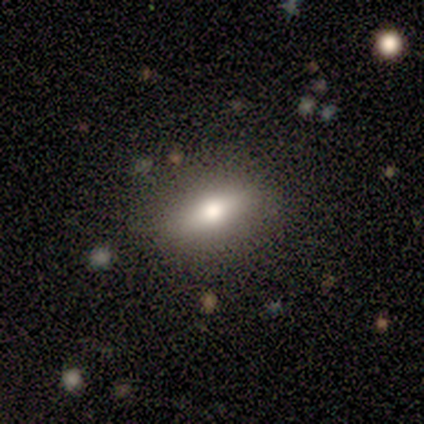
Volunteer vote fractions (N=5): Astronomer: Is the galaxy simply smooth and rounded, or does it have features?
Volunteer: smooth — 80%.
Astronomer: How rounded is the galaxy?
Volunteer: in between — 100%.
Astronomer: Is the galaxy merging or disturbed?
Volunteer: none — 100%.